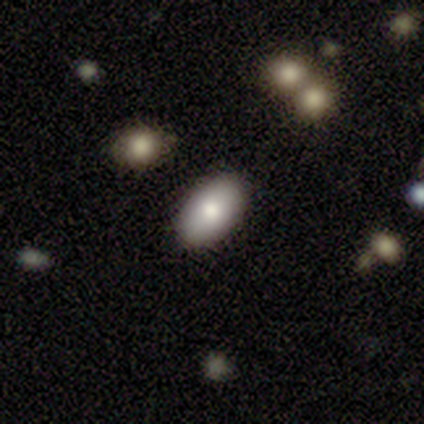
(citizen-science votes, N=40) A smooth galaxy with no disk features (85%) that is in between round and cigar-shaped (97%).

Vote fractions:
- Smooth or featured? smooth: 85% / featured or disk: 10% / star or artifact: 5%
- How rounded? in between: 97% / round: 3% / cigar-shaped: 0%
- Merging? none: 84% / minor disturbance: 8% / merger: 5% / major disturbance: 3%